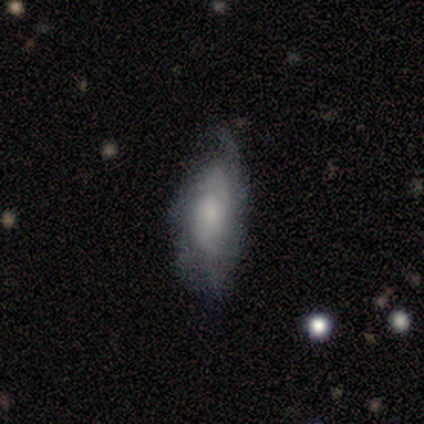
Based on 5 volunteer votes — smooth_or_featured: featured or disk (p=1.00)
disk_edge_on: no (p=1.00)
bar: no (p=0.60) [alt: weak p=0.40]
has_spiral_arms: yes (p=1.00)
spiral_winding: loose (p=0.60) [alt: tight p=0.40]
spiral_arm_count: 2 (p=0.40) [tied with: can't tell p=0.40]
bulge_size: moderate (p=0.60) [alt: small p=0.40]
merging: none (p=0.80) [alt: minor disturbance p=0.20]